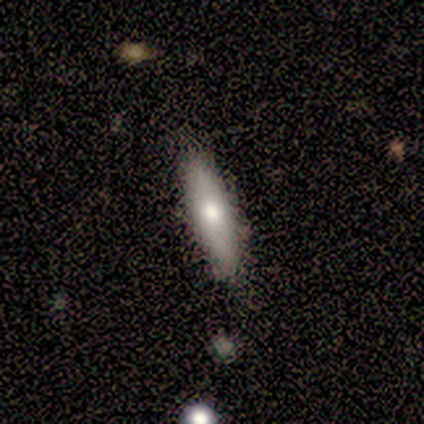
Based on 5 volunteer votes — Morphology: type=smooth (100%); roundness=in between (60%); merging=none (100%).